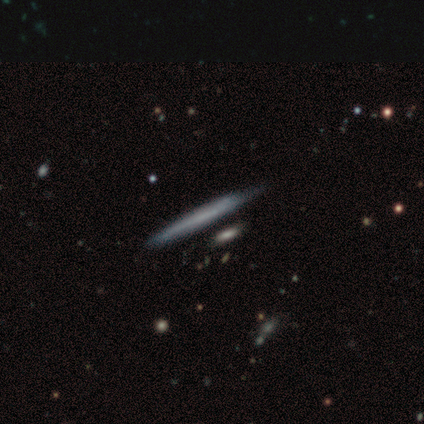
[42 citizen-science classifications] This appears to be a featured or disk galaxy (48%) viewed edge-on (100%) with no central bulge (100%). Merging: none (59%).